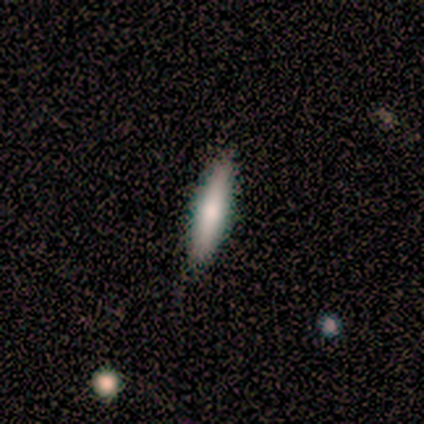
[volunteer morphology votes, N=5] This appears to be a featured or disk galaxy (60%) viewed edge-on (100%) with a rounded central bulge (67%). Merging: none (100%).